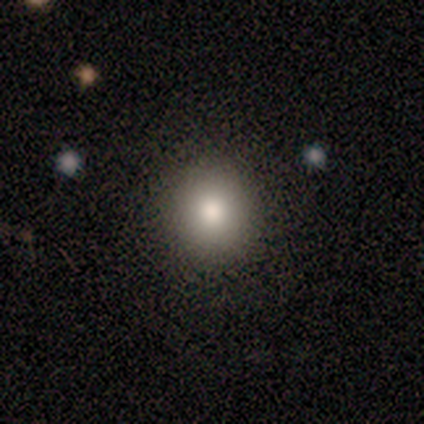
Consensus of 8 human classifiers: Smooth or featured: smooth — 100%
How rounded: round — 100%
Merging: none — 88% (minor disturbance — 12%)